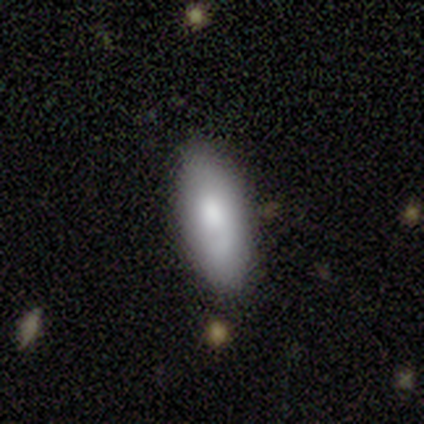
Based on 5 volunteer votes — Smooth or featured?
  - smooth: 80% *
  - star or artifact: 20%
  - featured or disk: 0%
How rounded?
  - in between: 75% *
  - cigar-shaped: 25%
  - round: 0%
Merging?
  - none: 50% * (tied)
  - minor disturbance: 50% * (tied)
  - major disturbance: 0%
  - merger: 0%